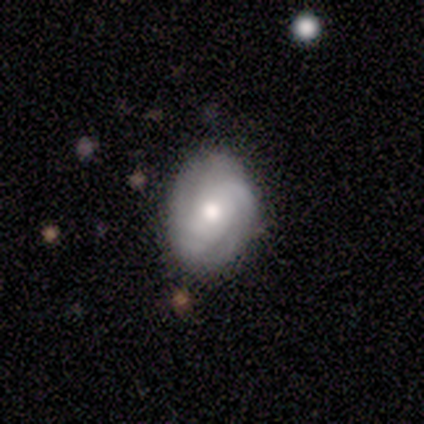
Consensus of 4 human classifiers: A featured or disk galaxy (75%) with no bar (100%), 2 (67%) tight (100%) spiral arms (100%) and a moderate central bulge (100%).

Vote fractions:
- Smooth or featured? featured or disk: 75% / smooth: 25% / star or artifact: 0%
- Edge-on disk? no: 100% / yes: 0%
- Bar? no: 100% / strong: 0% / weak: 0%
- Spiral arms? yes: 100% / no: 0%
- Spiral winding? tight: 100% / medium: 0% / loose: 0%
- Spiral arm count? 2: 67% / can't tell: 33% / 1: 0% / 3: 0% / 4: 0% / more than 4: 0%
- Bulge size? moderate: 100% / dominant: 0% / large: 0% / small: 0% / none: 0%
- Merging? none: 100% / minor disturbance: 0% / major disturbance: 0% / merger: 0%